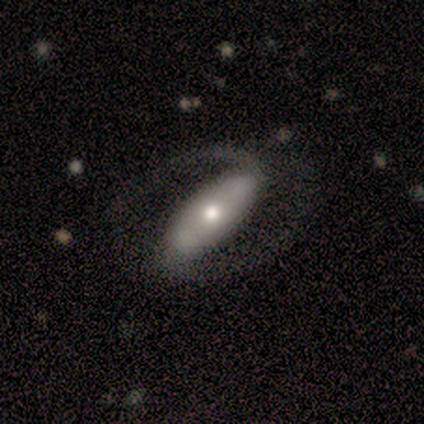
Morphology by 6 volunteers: Volunteers were most divided on "spiral winding": medium: 67%, loose: 33%, tight: 0%. More confident: smooth or featured — featured or disk (100%); edge-on disk — no (100%); spiral arms — yes (100%); spiral arm count — 2 (100%); bar — strong (83%); bulge size — small (83%); merging — none (83%).